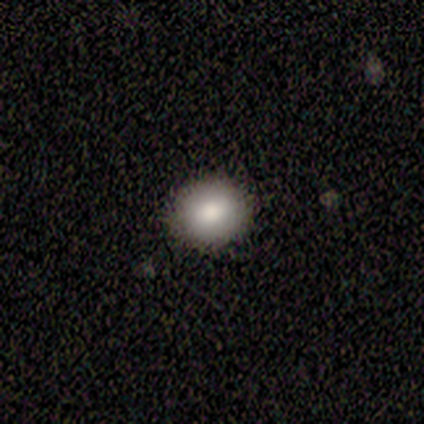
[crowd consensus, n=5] Smooth or featured? 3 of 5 (60%) said smooth. How rounded? 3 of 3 (100%) said round. Merging? 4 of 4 (100%) said none.